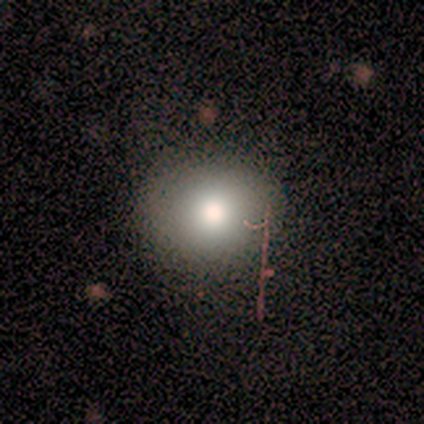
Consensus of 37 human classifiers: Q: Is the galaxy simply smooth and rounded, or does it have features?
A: smooth — 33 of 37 (89%).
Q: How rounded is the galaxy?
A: round — 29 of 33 (88%).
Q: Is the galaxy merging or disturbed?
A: none — 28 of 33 (85%).